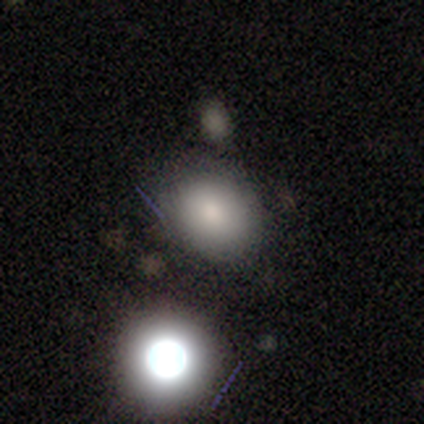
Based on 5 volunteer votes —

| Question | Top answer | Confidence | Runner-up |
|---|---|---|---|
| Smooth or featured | smooth | 80% | star or artifact (20%) |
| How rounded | round | 50% | tied: in between (50%) |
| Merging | none | 75% | minor disturbance (25%) |